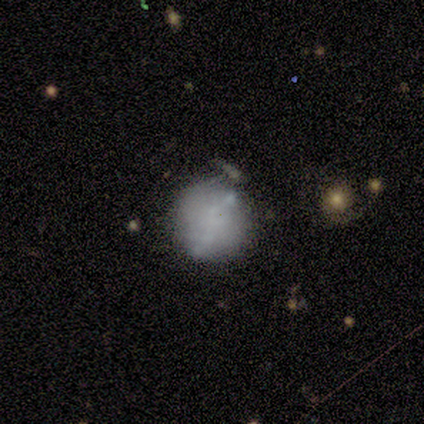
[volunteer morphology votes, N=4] Smooth or featured? 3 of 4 (75%) said featured or disk. Edge-on disk? 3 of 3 (100%) said no. Bar? 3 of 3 (100%) said no. Spiral arms? 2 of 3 (67%) said no. Bulge size? 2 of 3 (67%) said none. Merging? 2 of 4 (50%) said minor disturbance.